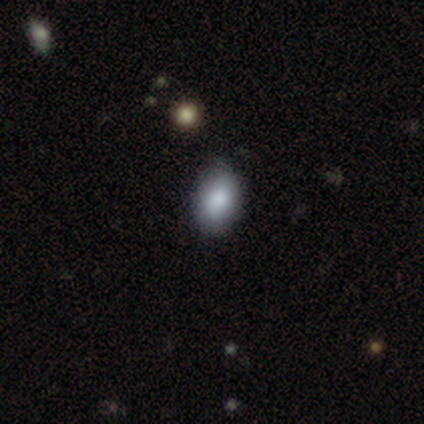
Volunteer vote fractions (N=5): Morphology: type=smooth (100%); roundness=in between (100%); merging=none (100%).